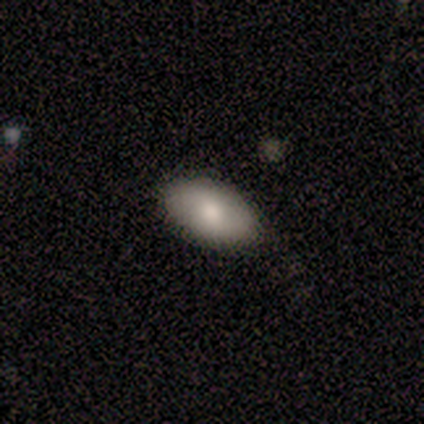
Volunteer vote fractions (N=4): smooth-or-featured: smooth: 100% | featured or disk: 0% | star or artifact: 0%
  how-rounded: in between: 100% | round: 0% | cigar-shaped: 0%
  merging: none: 75% | minor disturbance: 25% | major disturbance: 0% | merger: 0%